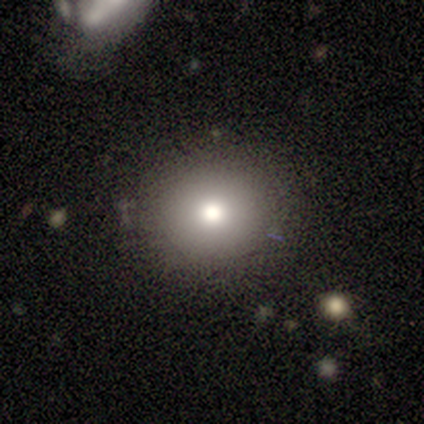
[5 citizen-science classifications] This is clearly a smooth galaxy (100%). How rounded: clearly round (80%). Merging: clearly none (100%).